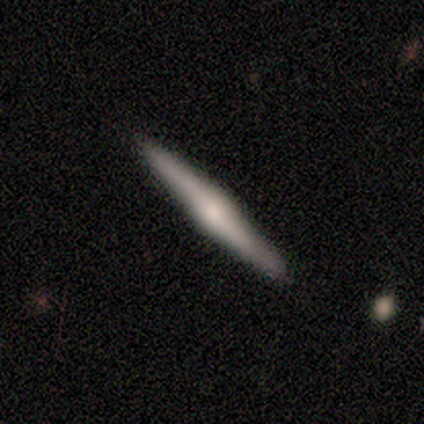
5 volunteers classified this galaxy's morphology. Overall: featured or disk (60%; smooth 40%). Edge-on disk: yes (100%). Edge-on bulge: rounded (100%). Merging: none (100%).